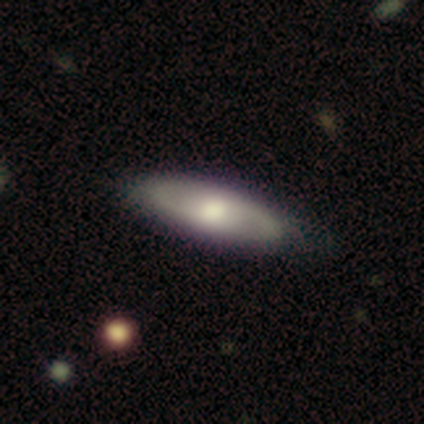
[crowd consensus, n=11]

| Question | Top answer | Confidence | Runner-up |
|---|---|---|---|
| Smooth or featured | featured or disk | 55% | smooth (45%) |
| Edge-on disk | no | 83% | yes (17%) |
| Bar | no | 60% | weak (40%) |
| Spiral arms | yes | 100% | — |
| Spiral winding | loose | 60% | tight (20%) |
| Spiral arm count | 2 | 100% | — |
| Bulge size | moderate | 80% | small (20%) |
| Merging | none | 91% | minor disturbance (9%) |